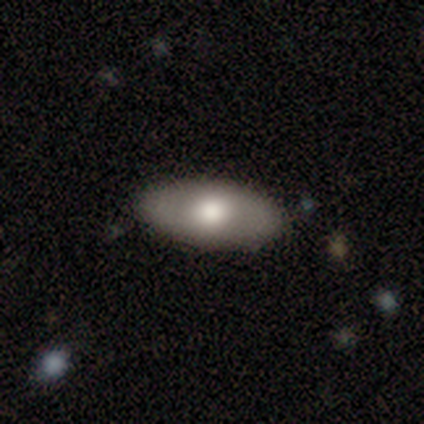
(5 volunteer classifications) This appears to be a smooth galaxy with no disk features (80%) that is in between round and cigar-shaped (100%). Merging: none (80%).